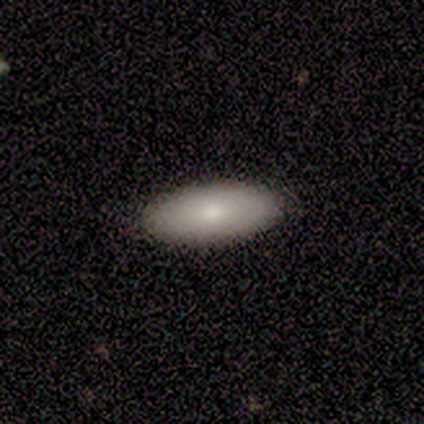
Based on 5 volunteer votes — A smooth galaxy with no disk features (80%) that is in between round and cigar-shaped (100%).

Vote fractions:
- Smooth or featured? smooth: 80% / featured or disk: 20% / star or artifact: 0%
- How rounded? in between: 100% / round: 0% / cigar-shaped: 0%
- Merging? none: 80% / minor disturbance: 20% / major disturbance: 0% / merger: 0%